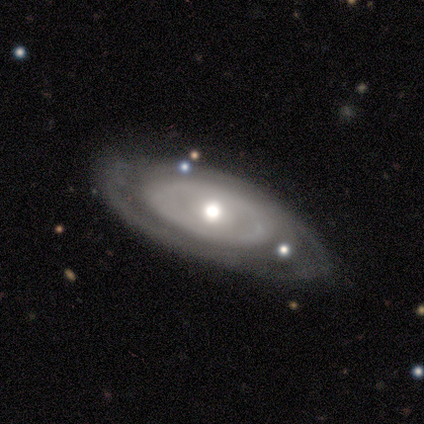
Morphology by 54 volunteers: A featured or disk galaxy (70%) with no bar (89%), tight (70%) spiral arms (57%) and a moderate central bulge (66%). Merging: none (66%).